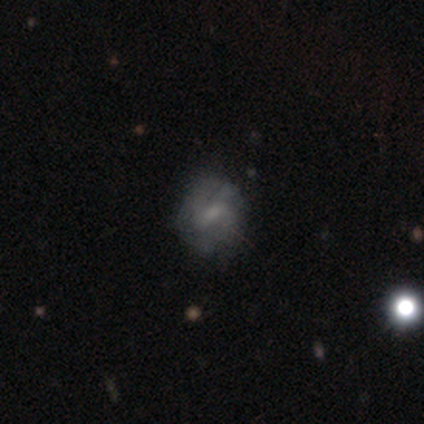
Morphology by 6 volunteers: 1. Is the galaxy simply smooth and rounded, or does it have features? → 50% featured or disk, 33% smooth, 17% star or artifact.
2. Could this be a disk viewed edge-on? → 100% no, 0% yes.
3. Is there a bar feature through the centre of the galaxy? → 67% weak, 33% strong, 0% no.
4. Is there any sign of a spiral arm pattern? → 67% yes, 33% no.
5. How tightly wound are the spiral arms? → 50% tight (tied), 50% medium (tied), 0% loose.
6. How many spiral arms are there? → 50% 4 (tied), 50% can't tell (tied), 0% 1, 0% 2, 0% 3, 0% more than 4.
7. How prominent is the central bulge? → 67% moderate, 33% none, 0% dominant, 0% large, 0% small.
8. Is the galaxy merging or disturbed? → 100% none, 0% minor disturbance, 0% major disturbance, 0% merger.